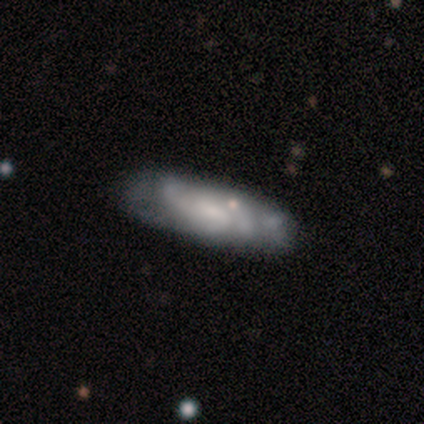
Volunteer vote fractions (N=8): smooth 50% (tied), featured or disk 50% (tied), star or artifact 0%. Down the decision tree: how rounded — in between (75%); merging — none (50%).